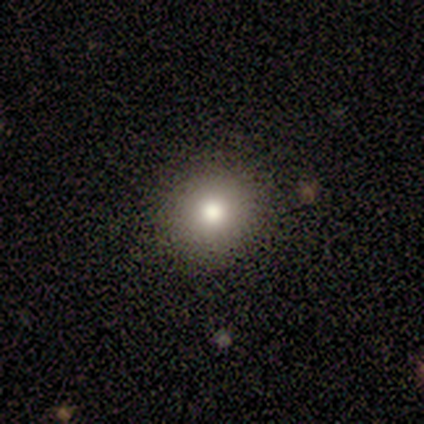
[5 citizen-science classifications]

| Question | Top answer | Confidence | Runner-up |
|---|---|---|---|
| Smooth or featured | smooth | 100% | — |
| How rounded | round | 100% | — |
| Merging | none | 100% | — |